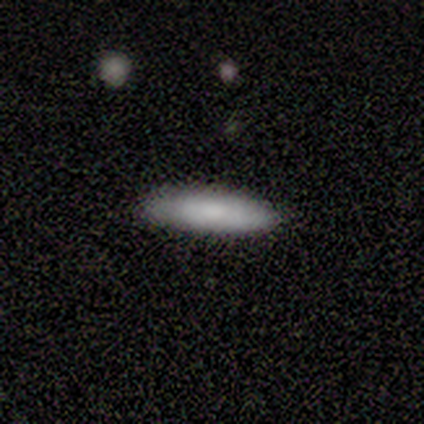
Overall: smooth (80%). How rounded: cigar-shaped (75%). Merging: none (100%).